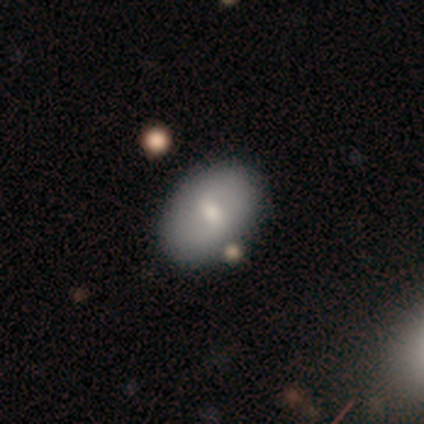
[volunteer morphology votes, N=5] This appears to be a featured or disk galaxy (60%) with a strong bar (33%, tied with weak and no), no spiral arms (67%) and a moderate central bulge (67%). Merging: none (100%).